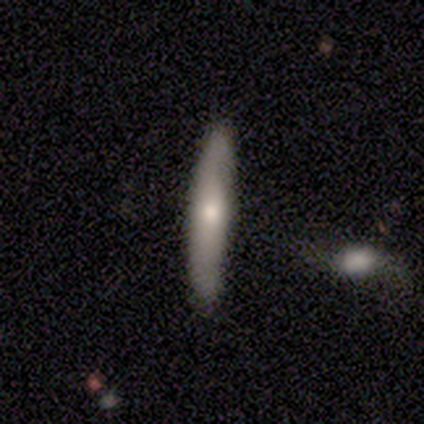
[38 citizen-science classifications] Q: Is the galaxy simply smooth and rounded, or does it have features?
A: smooth — 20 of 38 (53%).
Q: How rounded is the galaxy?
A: cigar-shaped — 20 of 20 (100%).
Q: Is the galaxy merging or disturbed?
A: none — 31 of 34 (91%).